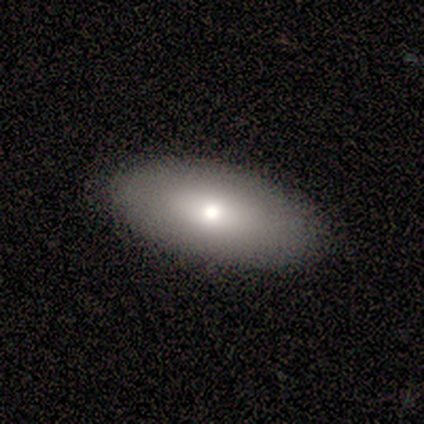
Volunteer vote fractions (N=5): Q: Smooth or featured?
A: smooth (60%); runner-up: featured or disk (40%)
Q: How rounded?
A: in between (100%)
Q: Merging?
A: none (100%)